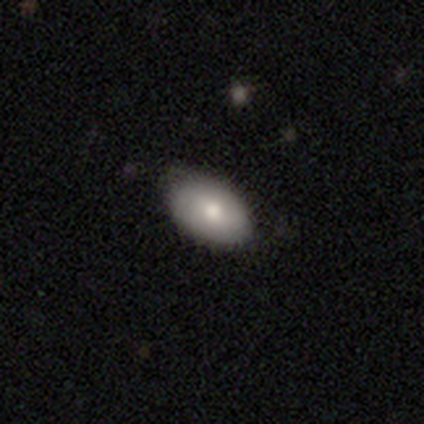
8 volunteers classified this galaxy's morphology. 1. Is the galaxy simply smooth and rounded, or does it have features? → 75% smooth, 12% featured or disk, 12% star or artifact.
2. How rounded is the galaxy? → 100% in between, 0% round, 0% cigar-shaped.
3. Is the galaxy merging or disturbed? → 71% none, 29% minor disturbance, 0% major disturbance, 0% merger.